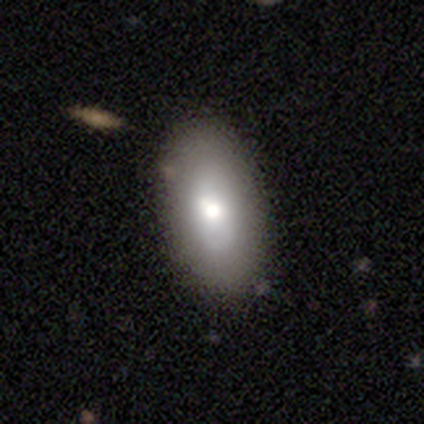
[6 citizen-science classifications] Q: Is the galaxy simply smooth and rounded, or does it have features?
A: smooth — 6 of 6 (100%).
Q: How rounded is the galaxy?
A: in between — 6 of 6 (100%).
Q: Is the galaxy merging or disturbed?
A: none — 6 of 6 (100%).